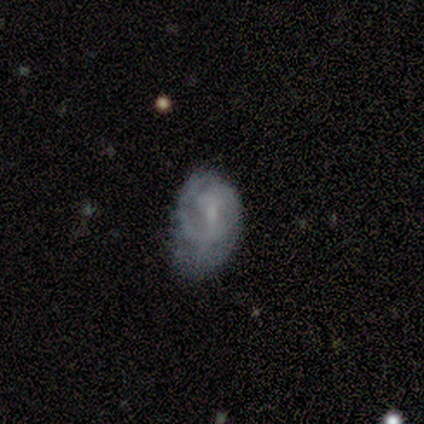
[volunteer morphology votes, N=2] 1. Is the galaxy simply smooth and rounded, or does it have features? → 100% featured or disk, 0% smooth, 0% star or artifact.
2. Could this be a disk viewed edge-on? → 100% no, 0% yes.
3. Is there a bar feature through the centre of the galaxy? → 50% weak (tied), 50% no (tied), 0% strong.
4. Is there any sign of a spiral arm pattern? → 100% yes, 0% no.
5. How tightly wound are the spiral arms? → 50% tight (tied), 50% medium (tied), 0% loose.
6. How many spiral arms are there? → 50% 2 (tied), 50% can't tell (tied), 0% 1, 0% 3, 0% 4, 0% more than 4.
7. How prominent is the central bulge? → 100% small, 0% dominant, 0% large, 0% moderate, 0% none.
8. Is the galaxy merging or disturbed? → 50% none (tied), 50% major disturbance (tied), 0% minor disturbance, 0% merger.